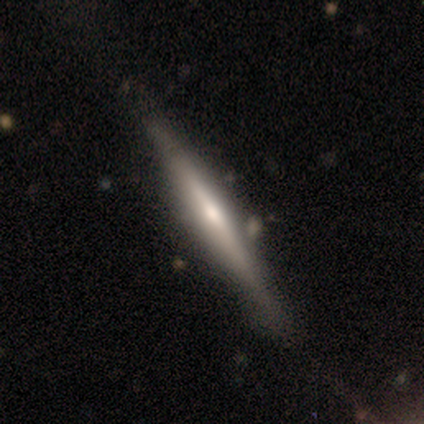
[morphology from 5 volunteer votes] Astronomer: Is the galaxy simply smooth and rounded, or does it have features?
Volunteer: featured or disk — 60% (runner-up: smooth, 40%).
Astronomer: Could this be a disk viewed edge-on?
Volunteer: yes — 100%.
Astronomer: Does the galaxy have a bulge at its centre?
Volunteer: boxy — 33%, tied with none and rounded at 33%.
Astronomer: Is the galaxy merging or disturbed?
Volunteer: none — 60% (runner-up: minor disturbance, 40%).